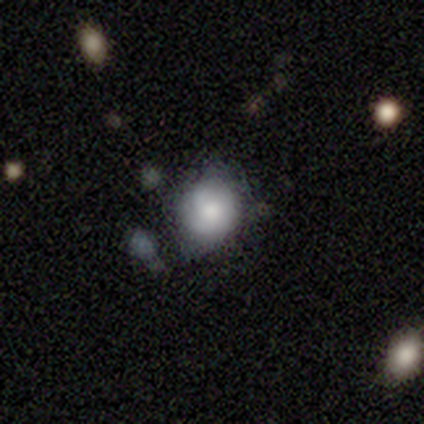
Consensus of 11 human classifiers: This is likely a smooth galaxy (64%). How rounded: likely round (71%). Merging: clearly none (80%).